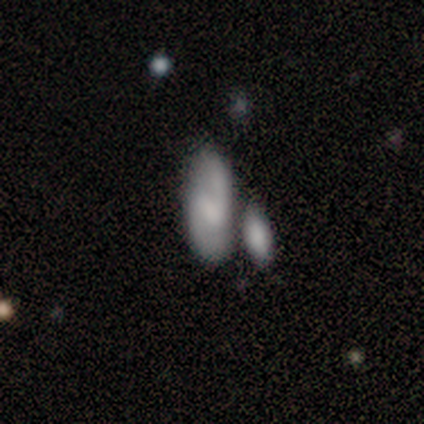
Smooth or featured? smooth (47%)
How rounded? in between (72%)
Merging? none (39%)